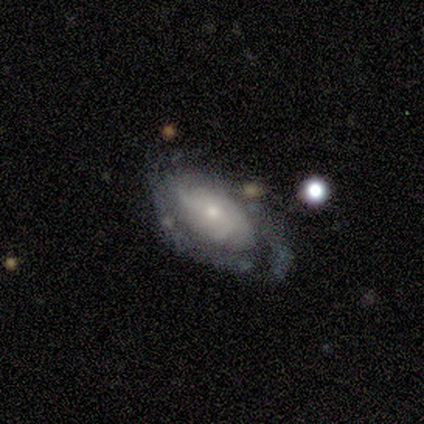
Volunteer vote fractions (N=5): This is clearly a featured or disk galaxy (80%). It is clearly not viewed edge-on (100%). Bar: possibly weak (50%, tied with no). Spiral arm pattern: likely yes (75%). Spiral arm count: clearly can't tell (100%). Spiral winding: likely tight (67%). Central bulge: clearly small (100%). Merging: clearly none (80%).